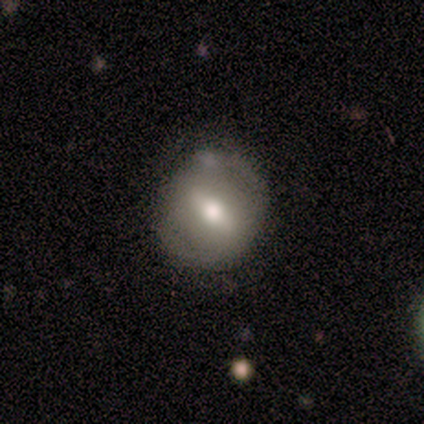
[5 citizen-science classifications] Overall: featured or disk (60%; smooth 40%). Edge-on disk: no (100%). Bar: strong (100%). Spiral arms: yes (67%; no 33%). Spiral arm count: 2 (100%). Spiral winding: tight (50%, tied with loose). Bulge size: moderate (67%; dominant 33%). Merging: none (40%, tied with minor disturbance).